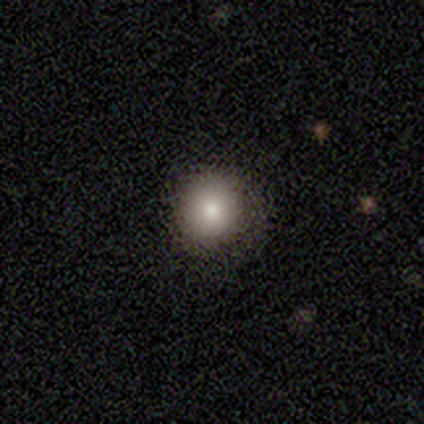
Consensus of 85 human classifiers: smooth 85%, featured or disk 8%, star or artifact 7%. Down the decision tree: how rounded — round (90%); merging — none (82%).